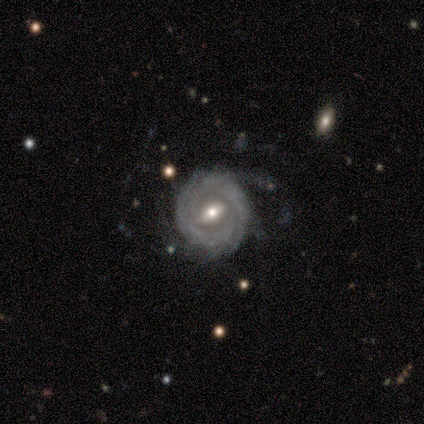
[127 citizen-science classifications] smooth-or-featured: featured or disk: 95% | smooth: 4% | star or artifact: 1%
  disk-edge-on: no: 98% | yes: 2%
    bar: weak: 49% | strong: 35% | no: 16%
    has-spiral-arms: yes: 88% | no: 12%
      spiral-winding: tight: 67% | medium: 23% | loose: 10%
      spiral-arm-count: can't tell: 46% | 2: 26% | more than 4: 11% | 3: 9% | 4: 6% | 1: 3%
    bulge-size: moderate: 66% | small: 30% | large: 4% | dominant: 0% | none: 0%
  merging: none: 56% | minor disturbance: 23% | major disturbance: 21% | merger: 1%